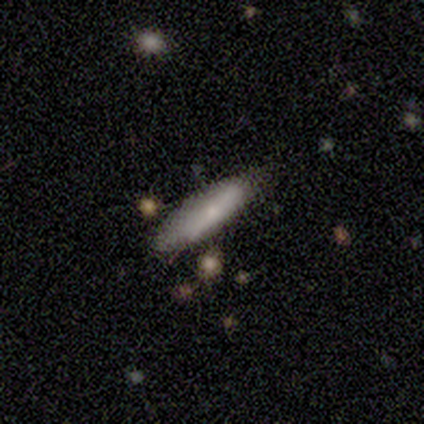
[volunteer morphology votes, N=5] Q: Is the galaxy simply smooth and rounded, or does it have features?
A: smooth — 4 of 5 (80%).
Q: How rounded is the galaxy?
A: in between — 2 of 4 (50%, tied with cigar-shaped).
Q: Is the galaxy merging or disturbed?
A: none — 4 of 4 (100%).